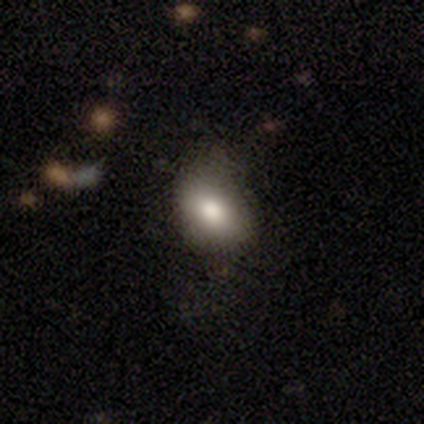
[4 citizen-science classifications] smooth 100%, featured or disk 0%, star or artifact 0%. Down the decision tree: how rounded — in between (100%); merging — minor disturbance (50%).